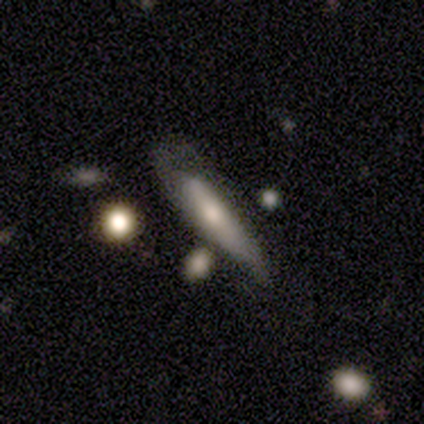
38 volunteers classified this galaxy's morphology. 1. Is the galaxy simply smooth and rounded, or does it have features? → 58% smooth, 37% featured or disk, 5% star or artifact.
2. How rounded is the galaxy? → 82% cigar-shaped, 18% in between, 0% round.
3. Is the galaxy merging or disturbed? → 36% minor disturbance, 31% none, 31% major disturbance, 3% merger.